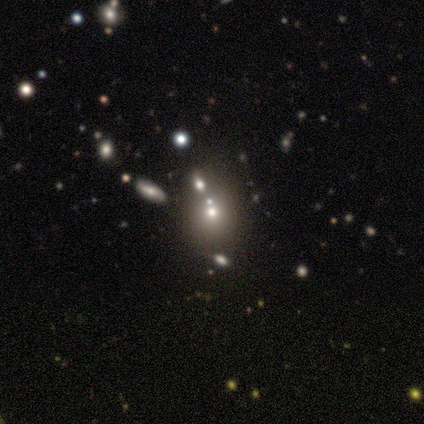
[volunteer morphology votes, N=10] smooth-or-featured: smooth: 50% | star or artifact: 40% | featured or disk: 10%
  how-rounded: round: 100% | in between: 0% | cigar-shaped: 0%
  merging: none: 50% | minor disturbance: 33% | merger: 17% | major disturbance: 0%